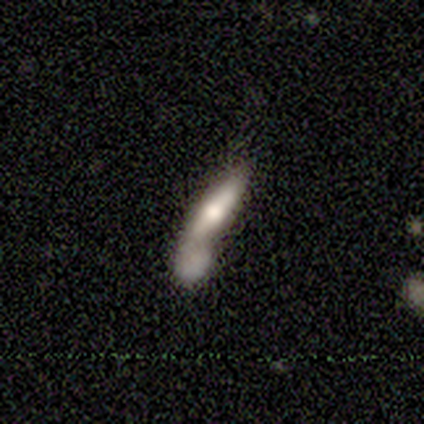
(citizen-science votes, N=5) This appears to be a smooth galaxy with no disk features (60%) that is in between round and cigar-shaped (67%). Merging: none (40%, tied with merger).